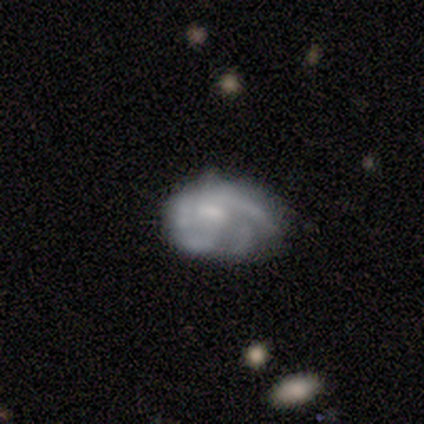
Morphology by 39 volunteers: Overall: featured or disk (74%). Edge-on disk: no (100%). Bar: no (52%; weak 34%). Spiral arms: yes (69%; no 31%). Spiral arm count: can't tell (35%; 3 25%). Spiral winding: medium (35%, tied with loose). Bulge size: small (45%; moderate 31%). Merging: none (44%; minor disturbance 31%).